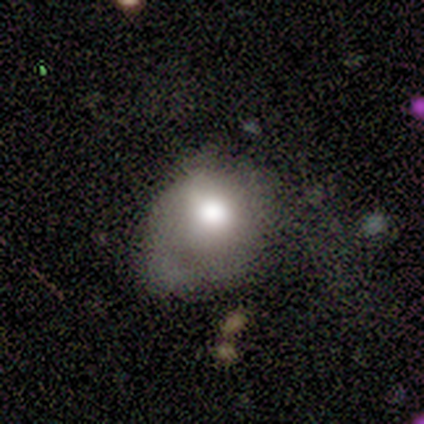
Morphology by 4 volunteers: smooth_or_featured: smooth (p=1.00)
how_rounded: round (p=0.50) [tied with: in between p=0.50]
merging: major disturbance (p=0.50) [alt: minor disturbance p=0.25]